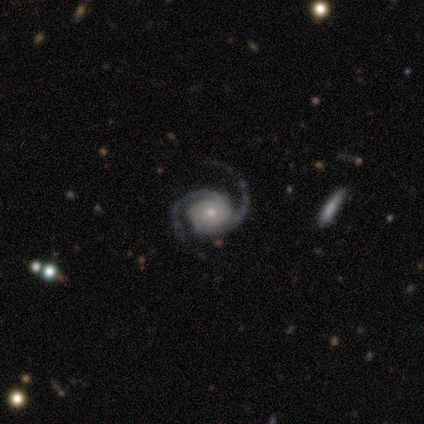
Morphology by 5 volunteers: smooth-or-featured: featured or disk: 100% | smooth: 0% | star or artifact: 0%
  disk-edge-on: no: 100% | yes: 0%
    bar: no: 60% | strong: 20% | weak: 20%
    has-spiral-arms: yes: 100% | no: 0%
      spiral-winding: medium: 80% | tight: 20% | loose: 0%
      spiral-arm-count: 2: 100% | 1: 0% | 3: 0% | 4: 0% | more than 4: 0% | can't tell: 0%
    bulge-size: small: 80% | moderate: 20% | dominant: 0% | large: 0% | none: 0%
  merging: none: 80% | minor disturbance: 20% | major disturbance: 0% | merger: 0%